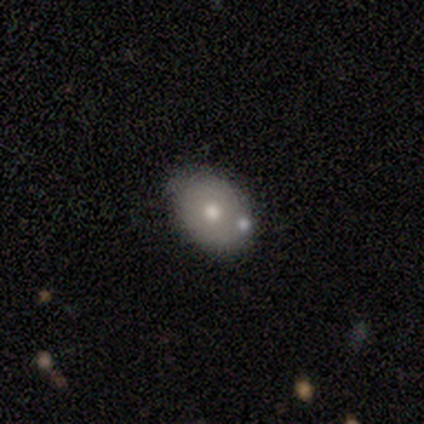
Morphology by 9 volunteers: This appears to be a smooth galaxy with no disk features (56%) that is in between round and cigar-shaped (80%). Merging: none (100%).